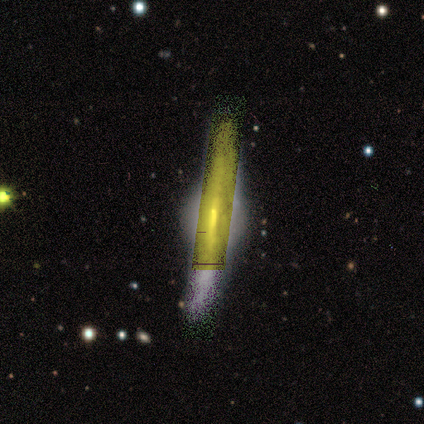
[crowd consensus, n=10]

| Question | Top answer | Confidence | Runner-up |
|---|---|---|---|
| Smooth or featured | featured or disk | 70% | star or artifact (30%) |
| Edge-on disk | yes | 86% | no (14%) |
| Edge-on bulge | rounded | 67% | boxy (33%) |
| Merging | none | 57% | minor disturbance (14%) |